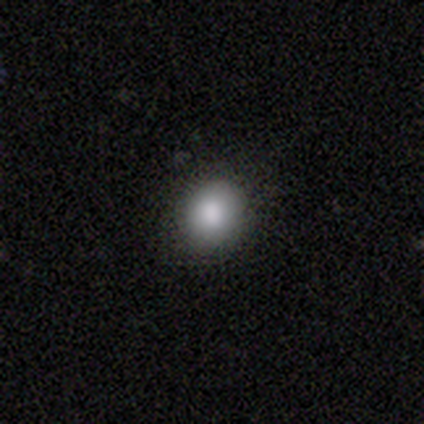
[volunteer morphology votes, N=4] This appears to be a smooth galaxy with no disk features (75%) that is round (100%). Merging: none (100%).